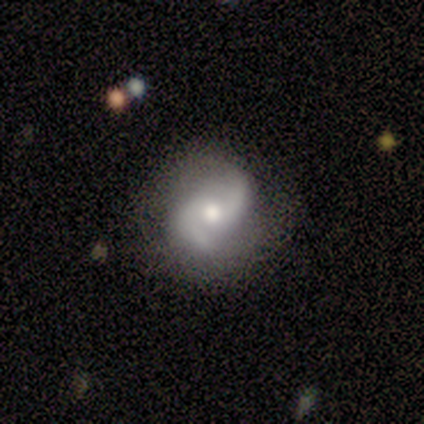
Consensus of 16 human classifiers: Overall: featured or disk (94%). Edge-on disk: no (100%). Bar: no (60%; weak 33%). Spiral arms: yes (100%). Spiral arm count: 2 (100%). Spiral winding: medium (47%; loose 40%). Bulge size: moderate (73%). Merging: none (67%; minor disturbance 33%).